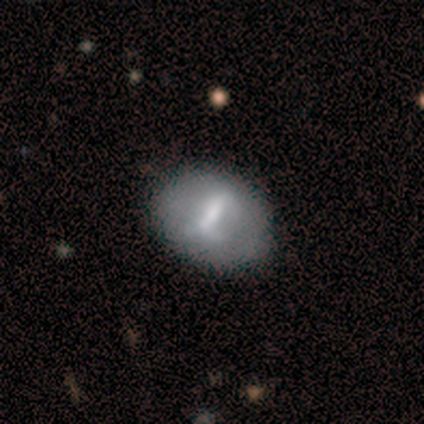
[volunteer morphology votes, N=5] A featured or disk galaxy (60%) with a strong bar (100%), no spiral arms (100%) and a moderate central bulge (33%, tied with small and none).

Vote fractions:
- Smooth or featured? featured or disk: 60% / smooth: 20% / star or artifact: 20%
- Edge-on disk? no: 100% / yes: 0%
- Bar? strong: 100% / weak: 0% / no: 0%
- Spiral arms? no: 100% / yes: 0%
- Bulge size? moderate: 33% (tied) / small: 33% (tied) / none: 33% (tied) / dominant: 0% / large: 0%
- Merging? none: 100% / minor disturbance: 0% / major disturbance: 0% / merger: 0%